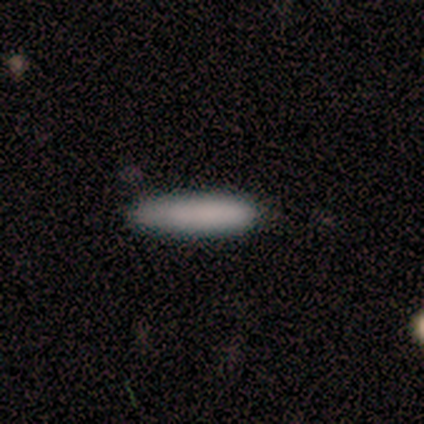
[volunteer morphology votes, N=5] Q: Smooth or featured?
A: smooth (80%); runner-up: star or artifact (20%)
Q: How rounded?
A: cigar-shaped (100%)
Q: Merging?
A: none (50%); tied with: minor disturbance (50%)